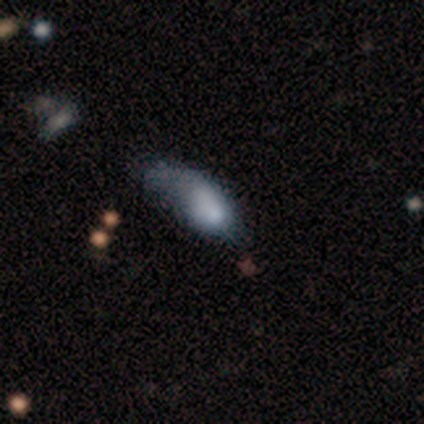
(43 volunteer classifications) smooth-or-featured: smooth: 63% | featured or disk: 33% | star or artifact: 5%
  how-rounded: in between: 93% | cigar-shaped: 7% | round: 0%
  merging: major disturbance: 49% | minor disturbance: 37% | none: 7% | merger: 7%